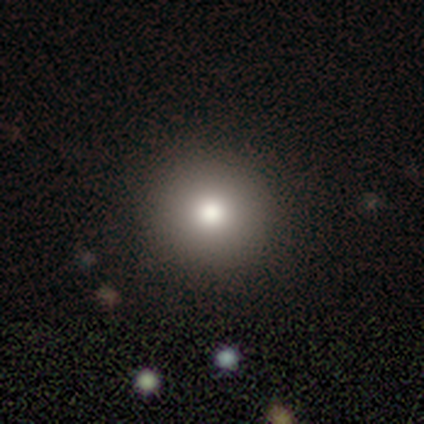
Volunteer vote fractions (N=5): Q: Smooth or featured?
A: smooth (60%); runner-up: featured or disk (20%)
Q: How rounded?
A: round (100%)
Q: Merging?
A: none (100%)